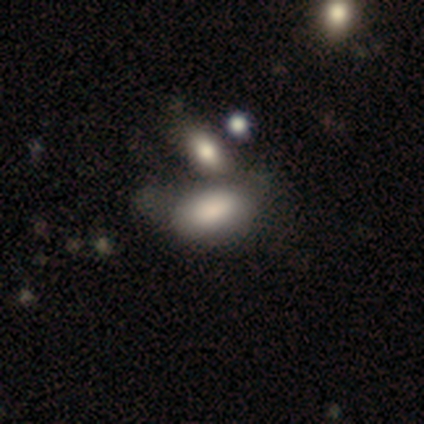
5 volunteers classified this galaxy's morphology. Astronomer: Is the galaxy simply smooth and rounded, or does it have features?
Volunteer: smooth — 80%.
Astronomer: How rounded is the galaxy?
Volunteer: in between — 100%.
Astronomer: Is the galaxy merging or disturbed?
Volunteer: minor disturbance — 40%, tied with merger at 40%.